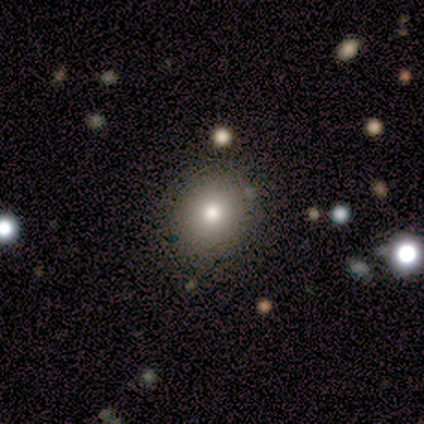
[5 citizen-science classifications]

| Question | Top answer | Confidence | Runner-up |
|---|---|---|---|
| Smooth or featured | smooth | 100% | — |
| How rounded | round | 80% | in between (20%) |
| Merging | none | 60% | minor disturbance (40%) |